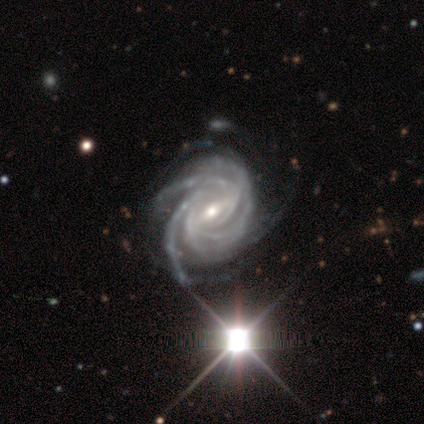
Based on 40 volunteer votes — Smooth or featured?
  - featured or disk: 98% *
  - star or artifact: 2%
  - smooth: 0%
Edge-on disk?
  - no: 100% *
  - yes: 0%
Bar?
  - strong: 64% *
  - weak: 28%
  - no: 8%
Spiral arms?
  - yes: 97% *
  - no: 3%
Spiral winding?
  - tight: 58% *
  - medium: 34%
  - loose: 8%
Spiral arm count?
  - 4: 42% * (tied)
  - more than 4: 42% * (tied)
  - 3: 8%
  - can't tell: 8%
  - 1: 0%
  - 2: 0%
Bulge size?
  - moderate: 69% *
  - small: 28%
  - dominant: 3%
  - large: 0%
  - none: 0%
Merging?
  - none: 38% *
  - minor disturbance: 26%
  - major disturbance: 5%
  - merger: 0%